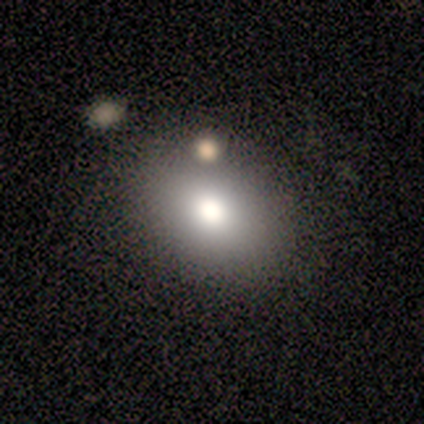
Smooth or featured? 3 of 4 (75%) said smooth. How rounded? 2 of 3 (67%) said in between. Merging? 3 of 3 (100%) said none.